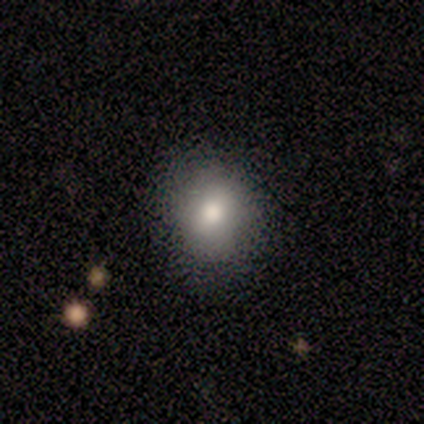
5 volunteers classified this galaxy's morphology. This is clearly a smooth galaxy (100%). How rounded: clearly round (80%). Merging: clearly none (100%).